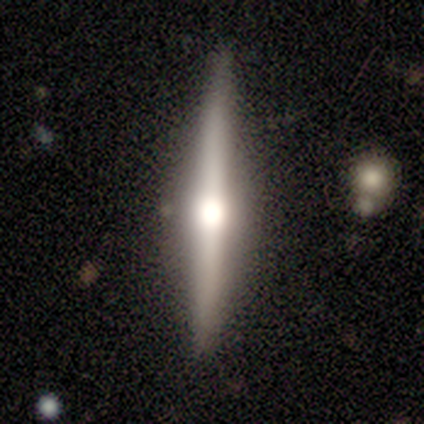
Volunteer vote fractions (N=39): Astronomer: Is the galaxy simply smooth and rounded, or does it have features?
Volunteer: featured or disk — 82%.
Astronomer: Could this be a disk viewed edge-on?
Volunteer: yes — 97%.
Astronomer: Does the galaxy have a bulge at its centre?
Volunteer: rounded — 97%.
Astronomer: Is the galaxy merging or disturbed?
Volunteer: none — 87%.